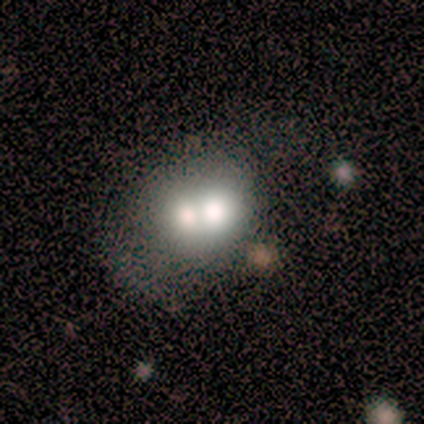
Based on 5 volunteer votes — Q: Smooth or featured?
A: smooth (60%); runner-up: featured or disk (40%)
Q: How rounded?
A: round (67%); runner-up: in between (33%)
Q: Merging?
A: none (40%); tied with: merger (40%)